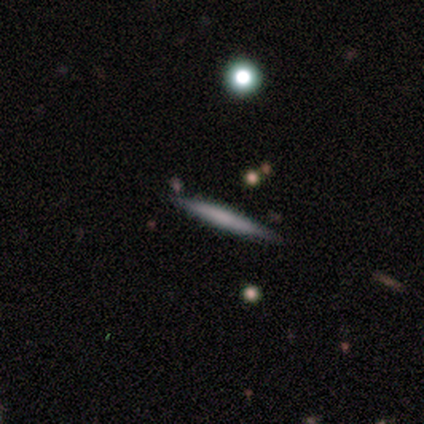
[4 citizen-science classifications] Q: Smooth or featured?
A: featured or disk (75%); runner-up: smooth (25%)
Q: Edge-on disk?
A: yes (100%)
Q: Edge-on bulge?
A: none (100%)
Q: Merging?
A: none (100%)